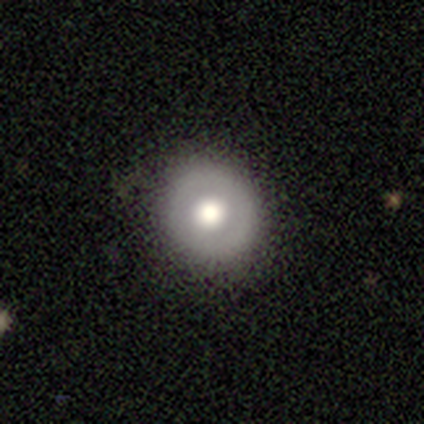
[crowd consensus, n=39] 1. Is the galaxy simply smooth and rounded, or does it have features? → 74% smooth, 15% featured or disk, 10% star or artifact.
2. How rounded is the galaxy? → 93% round, 7% in between, 0% cigar-shaped.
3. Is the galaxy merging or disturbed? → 91% none, 9% minor disturbance, 0% major disturbance, 0% merger.